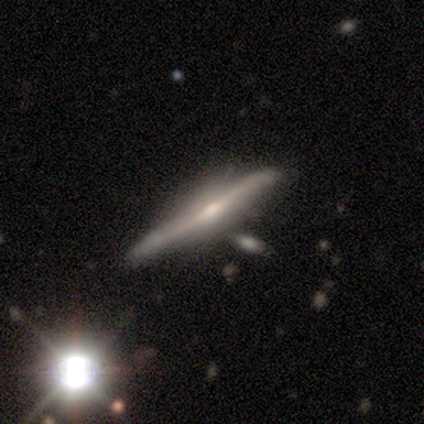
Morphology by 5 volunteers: Smooth or featured? featured or disk (60%)
Edge-on disk? yes (100%)
Edge-on bulge? rounded (67%)
Merging? none (50%)